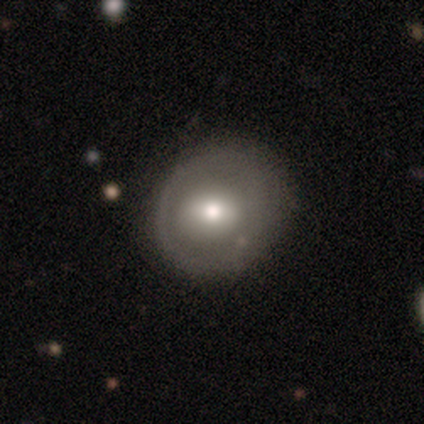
Smooth or featured? 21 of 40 (52%) said featured or disk. Edge-on disk? 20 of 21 (95%) said no. Bar? 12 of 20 (60%) said no. Spiral arms? 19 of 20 (95%) said no. Bulge size? 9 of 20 (45%) said moderate. Merging? 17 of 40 (42%) said none.